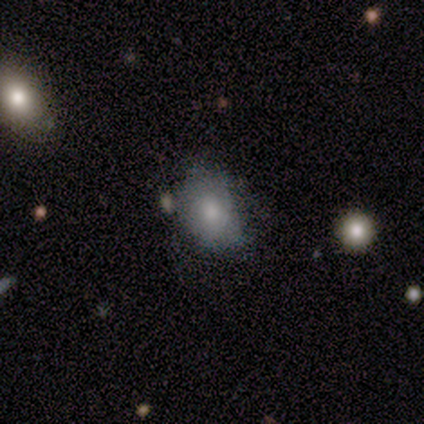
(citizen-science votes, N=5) This is clearly a smooth galaxy (80%). How rounded: likely in between (75%). Merging: likely minor disturbance (60%).